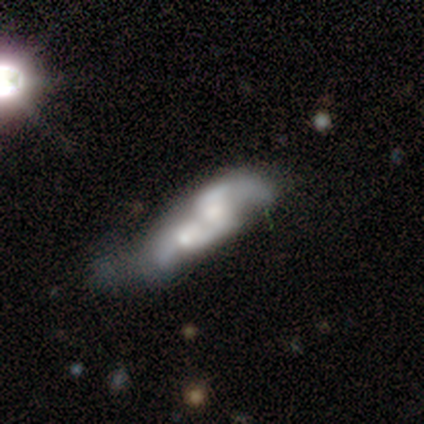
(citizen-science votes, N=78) Smooth or featured? 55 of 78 (71%) said featured or disk. Edge-on disk? 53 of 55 (96%) said no. Bar? 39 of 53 (74%) said no. Spiral arms? 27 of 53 (51%) said no. Bulge size? 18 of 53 (34%) said moderate. Merging? 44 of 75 (59%) said merger.